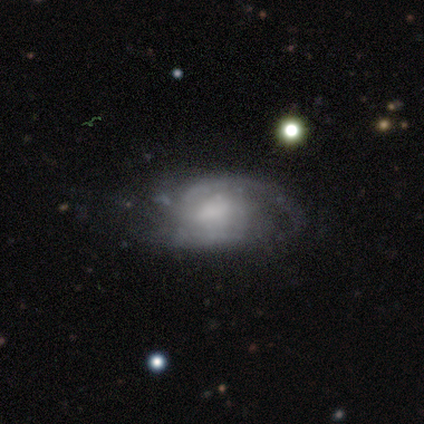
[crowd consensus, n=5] featured or disk 100%, smooth 0%, star or artifact 0%. Down the decision tree: edge-on disk — no (60%); bar — no (67%); spiral arms — yes (100%); spiral arm count — 2 (67%); spiral winding — medium (67%); bulge size — moderate (100%); merging — minor disturbance (60%).